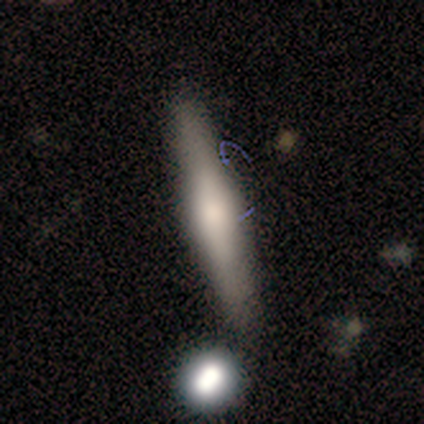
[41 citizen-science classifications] smooth-or-featured: featured or disk: 56% | smooth: 29% | star or artifact: 15%
  disk-edge-on: yes: 87% | no: 13%
    edge-on-bulge: rounded: 70% | boxy: 20% | none: 10%
  merging: none: 69% | merger: 17% | minor disturbance: 14% | major disturbance: 0%